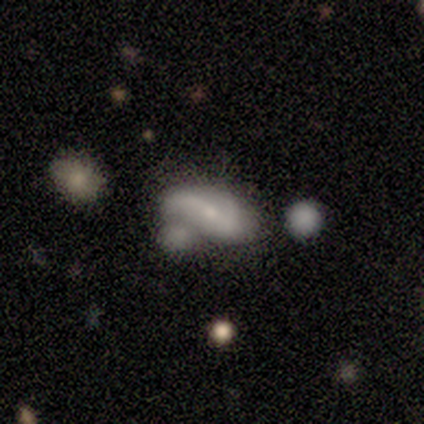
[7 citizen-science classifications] Smooth or featured? 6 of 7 (86%) said featured or disk. Edge-on disk? 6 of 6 (100%) said no. Bar? 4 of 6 (67%) said weak. Spiral arms? 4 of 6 (67%) said yes. Spiral winding? 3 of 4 (75%) said loose. Spiral arm count? 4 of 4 (100%) said 2. Bulge size? 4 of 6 (67%) said small. Merging? 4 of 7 (57%) said merger.